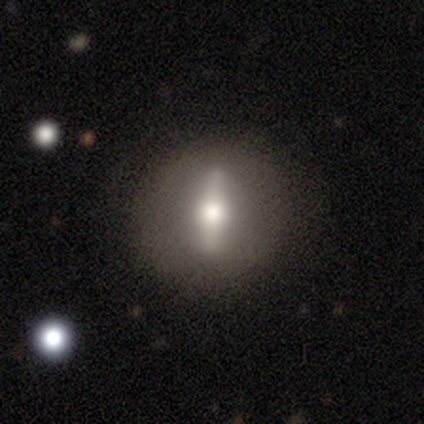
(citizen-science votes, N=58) Smooth or featured?
  - featured or disk: 83% *
  - smooth: 12%
  - star or artifact: 5%
Edge-on disk?
  - no: 54% *
  - yes: 46%
Bar?
  - strong: 85% *
  - weak: 15%
  - no: 0%
Spiral arms?
  - no: 100% *
  - yes: 0%
Bulge size?
  - moderate: 65% *
  - large: 27%
  - dominant: 4%
  - small: 4%
  - none: 0%
Merging?
  - none: 73% *
  - minor disturbance: 13%
  - major disturbance: 13%
  - merger: 2%